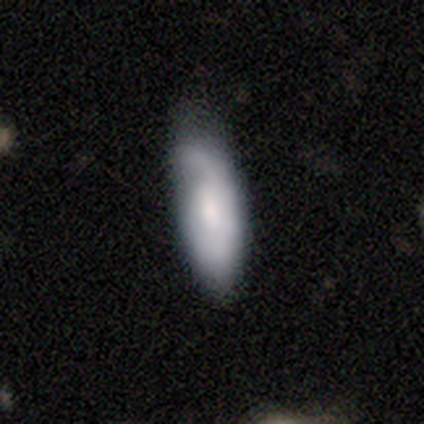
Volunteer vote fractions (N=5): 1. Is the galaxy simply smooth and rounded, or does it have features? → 60% featured or disk, 40% smooth, 0% star or artifact.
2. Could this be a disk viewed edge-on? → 100% no, 0% yes.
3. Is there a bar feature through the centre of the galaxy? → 67% weak, 33% no, 0% strong.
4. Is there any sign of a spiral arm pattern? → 100% yes, 0% no.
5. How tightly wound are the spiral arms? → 33% tight (tied), 33% medium (tied), 33% loose (tied).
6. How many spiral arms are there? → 33% 1 (tied), 33% 2 (tied), 33% can't tell (tied), 0% 3, 0% 4, 0% more than 4.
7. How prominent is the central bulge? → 100% small, 0% dominant, 0% large, 0% moderate, 0% none.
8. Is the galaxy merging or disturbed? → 40% none (tied), 40% minor disturbance (tied), 20% major disturbance, 0% merger.